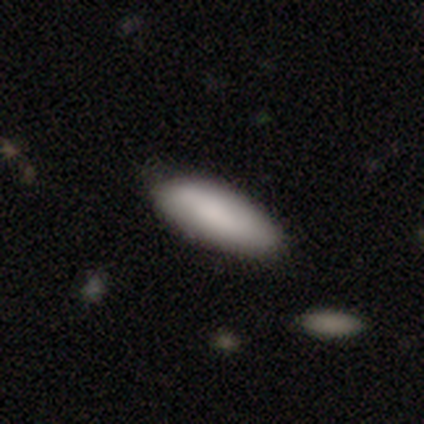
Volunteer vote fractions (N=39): Smooth or featured? smooth (92%)
How rounded? in between (83%)
Merging? none (70%)